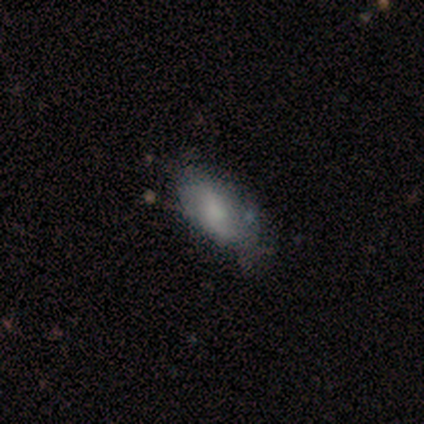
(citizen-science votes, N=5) Morphology: type=featured or disk (60%); edge-on=no (100%); bar=no (100%); spiral arms=yes (67%); winding=loose (100%); arm count=2 (100%); bulge=moderate (67%); merging=none (100%).